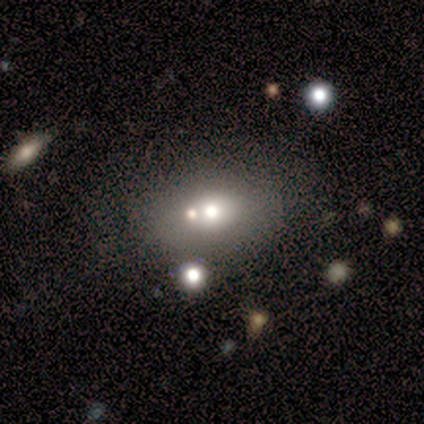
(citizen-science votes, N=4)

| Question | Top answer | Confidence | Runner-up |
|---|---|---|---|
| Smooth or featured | smooth | 50% | featured or disk (25%) |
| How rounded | round | 50% | tied: in between (50%) |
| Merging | none | 67% | minor disturbance (33%) |